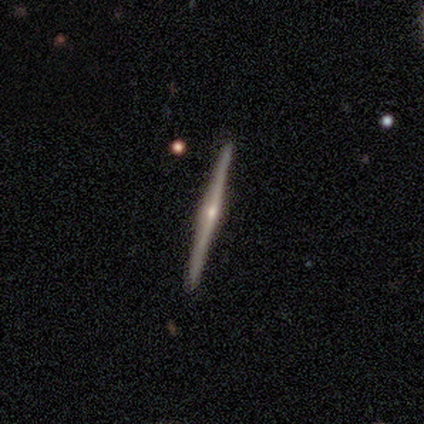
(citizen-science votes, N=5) smooth-or-featured: featured or disk: 100% | smooth: 0% | star or artifact: 0%
  disk-edge-on: yes: 100% | no: 0%
    edge-on-bulge: rounded: 100% | boxy: 0% | none: 0%
  merging: none: 100% | minor disturbance: 0% | major disturbance: 0% | merger: 0%